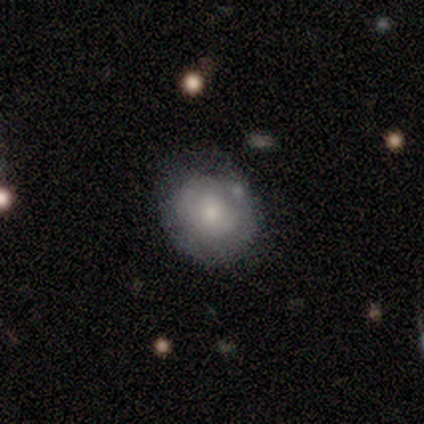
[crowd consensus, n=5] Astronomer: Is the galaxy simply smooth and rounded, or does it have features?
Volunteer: smooth — 60%.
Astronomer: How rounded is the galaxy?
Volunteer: round — 67%.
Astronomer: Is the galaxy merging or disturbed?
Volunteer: none — 100%.